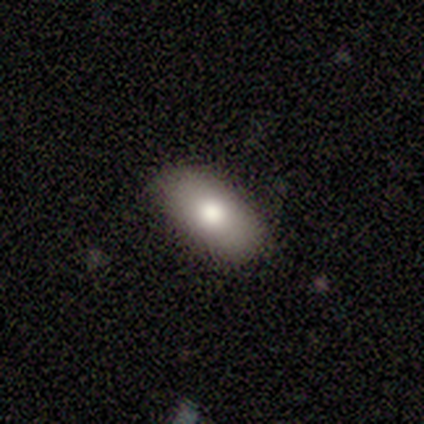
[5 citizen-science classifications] smooth 60%, featured or disk 20%, star or artifact 20%. Down the decision tree: how rounded — in between (67%); merging — none (75%).